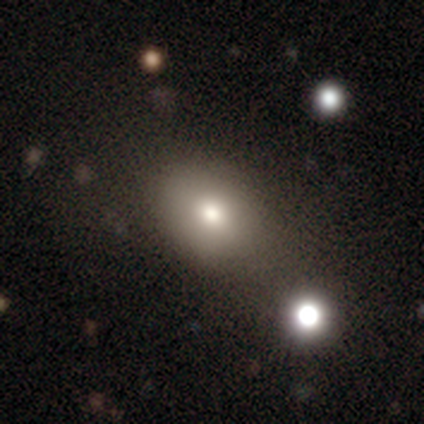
A smooth galaxy with no disk features (72%) that is in between round and cigar-shaped (68%).

Vote fractions:
- Smooth or featured? smooth: 72% / star or artifact: 18% / featured or disk: 10%
- How rounded? in between: 68% / round: 32% / cigar-shaped: 0%
- Merging? none: 72% / minor disturbance: 12% / merger: 9% / major disturbance: 6%